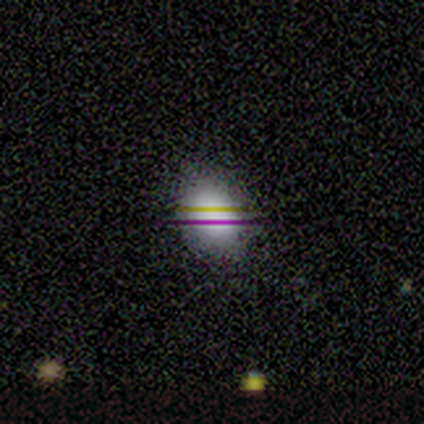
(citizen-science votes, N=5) Volunteers were most divided on "smooth or featured" (2-way tie): smooth: 40%, star or artifact: 40%, featured or disk: 20%. More confident: how rounded — in between (100%); merging — none (100%).